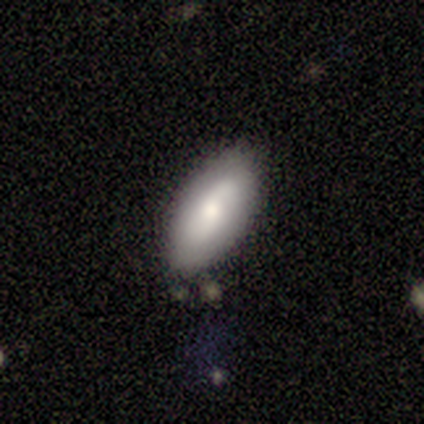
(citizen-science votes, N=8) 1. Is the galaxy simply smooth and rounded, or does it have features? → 75% smooth, 12% featured or disk, 12% star or artifact.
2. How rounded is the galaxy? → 100% in between, 0% round, 0% cigar-shaped.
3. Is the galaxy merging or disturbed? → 100% none, 0% minor disturbance, 0% major disturbance, 0% merger.